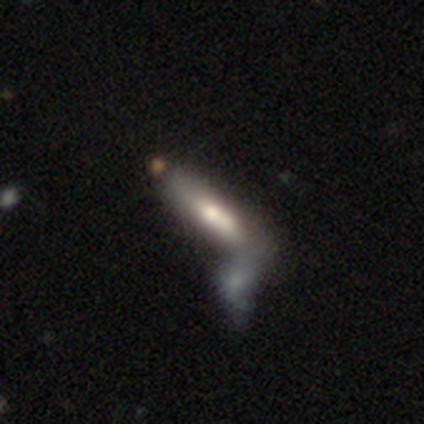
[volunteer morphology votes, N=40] smooth_or_featured: smooth (p=0.55) [alt: featured or disk p=0.35]
how_rounded: in between (p=0.50) [tied with: cigar-shaped p=0.50]
merging: merger (p=0.47) [alt: none p=0.14]